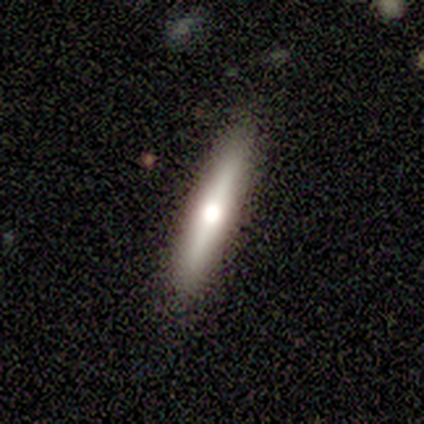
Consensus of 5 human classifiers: Smooth or featured?
  - featured or disk: 60% *
  - smooth: 20%
  - star or artifact: 20%
Edge-on disk?
  - yes: 100% *
  - no: 0%
Edge-on bulge?
  - rounded: 100% *
  - boxy: 0%
  - none: 0%
Merging?
  - none: 100% *
  - minor disturbance: 0%
  - major disturbance: 0%
  - merger: 0%